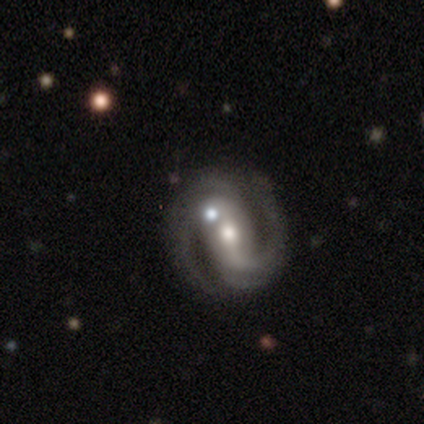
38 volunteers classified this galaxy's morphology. Q: Smooth or featured?
A: featured or disk (92%); runner-up: star or artifact (5%)
Q: Edge-on disk?
A: no (97%); runner-up: yes (3%)
Q: Bar?
A: weak (50%); runner-up: strong (38%)
Q: Spiral arms?
A: yes (97%); runner-up: no (3%)
Q: Spiral winding?
A: medium (64%); runner-up: tight (21%)
Q: Spiral arm count?
A: 2 (91%); runner-up: 3 (6%)
Q: Bulge size?
A: moderate (65%); runner-up: small (32%)
Q: Merging?
A: none (83%); runner-up: minor disturbance (8%)